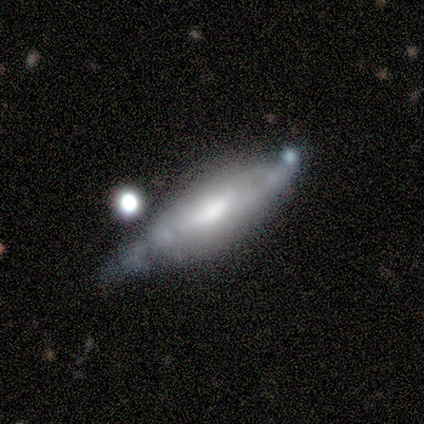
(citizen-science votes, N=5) Volunteers were most divided on "how rounded" (2-way tie): in between: 50%, cigar-shaped: 50%, round: 0%; "merging" (2-way tie): none: 40%, minor disturbance: 40%, major disturbance: 20%, merger: 0%. More confident: smooth or featured — smooth (80%).